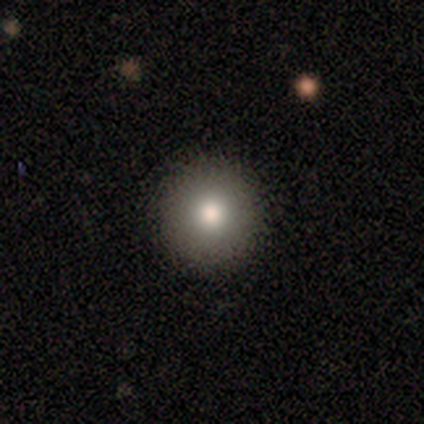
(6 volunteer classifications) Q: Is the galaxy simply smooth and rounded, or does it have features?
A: smooth — 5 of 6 (83%).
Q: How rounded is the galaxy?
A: round — 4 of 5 (80%).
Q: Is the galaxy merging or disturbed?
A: none — 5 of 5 (100%).